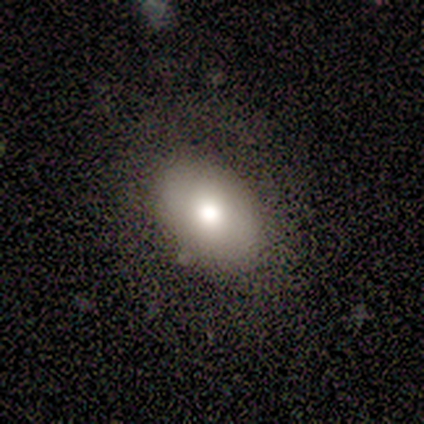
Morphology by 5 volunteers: smooth_or_featured: smooth (p=0.80) [alt: featured or disk p=0.20]
how_rounded: in between (p=0.75) [alt: round p=0.25]
merging: none (p=0.80) [alt: minor disturbance p=0.20]